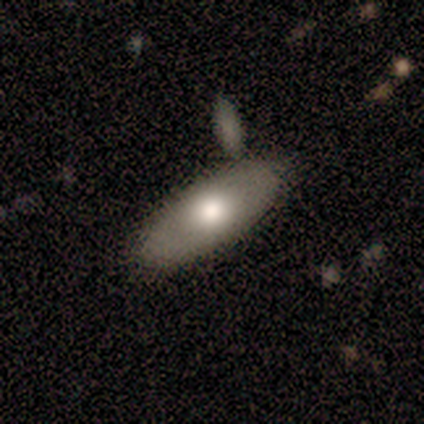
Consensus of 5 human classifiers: Smooth or featured? 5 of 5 (100%) said smooth. How rounded? 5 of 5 (100%) said in between. Merging? 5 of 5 (100%) said none.